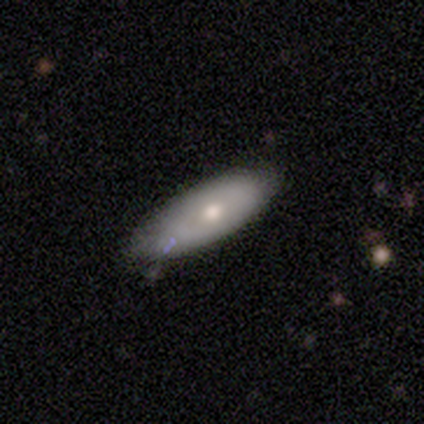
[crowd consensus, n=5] Overall: smooth (60%; featured or disk 20%). How rounded: in between (100%). Merging: none (50%; minor disturbance 25%).